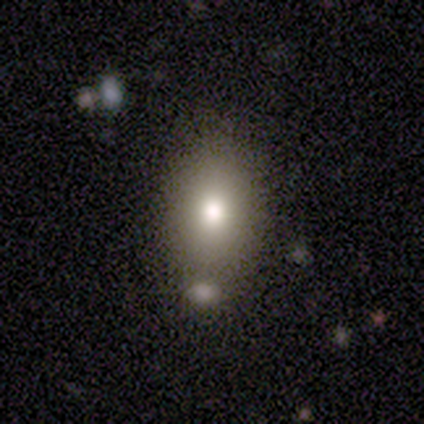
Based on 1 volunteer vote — Consensus on every question: smooth or featured — smooth (100%); how rounded — in between (100%); merging — none (100%).